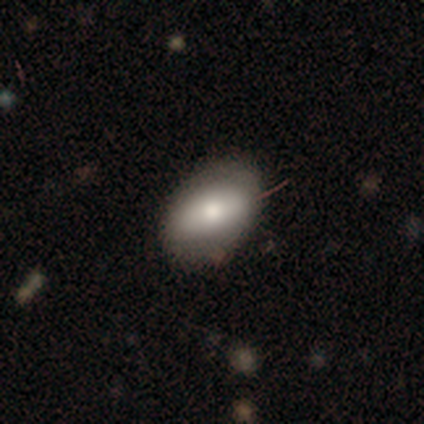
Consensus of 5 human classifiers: Morphology: type=smooth (100%); roundness=in between (100%); merging=none (80%).